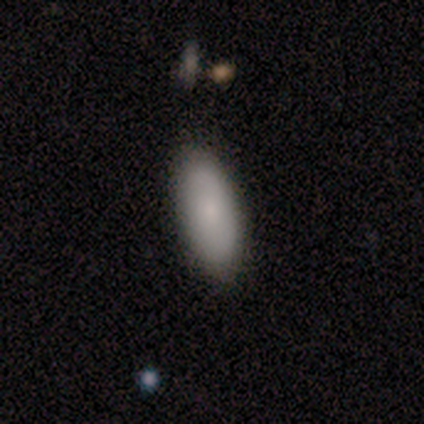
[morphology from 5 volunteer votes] smooth 60%, featured or disk 40%, star or artifact 0%. Down the decision tree: how rounded — in between (100%); merging — none (80%).